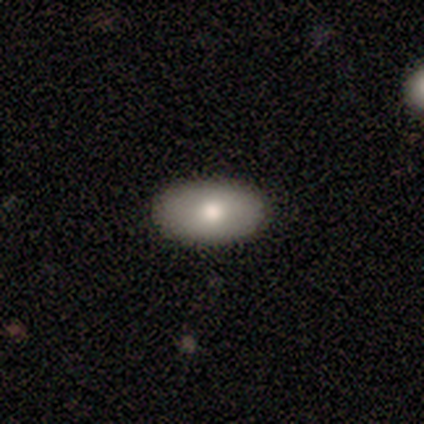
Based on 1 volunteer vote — smooth 100%, featured or disk 0%, star or artifact 0%. Down the decision tree: how rounded — in between (100%); merging — none (100%).